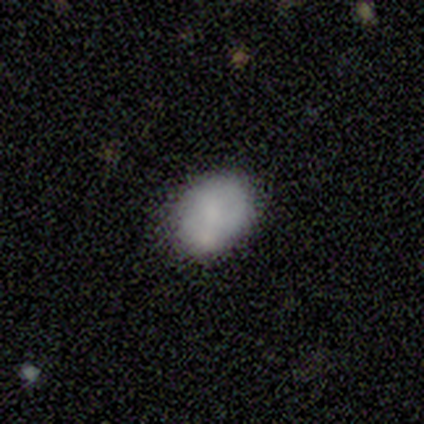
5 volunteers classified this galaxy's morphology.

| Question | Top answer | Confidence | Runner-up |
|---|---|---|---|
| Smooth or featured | smooth | 60% | featured or disk (40%) |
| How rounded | round | 67% | in between (33%) |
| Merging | none | 40% | tied: minor disturbance (40%) |